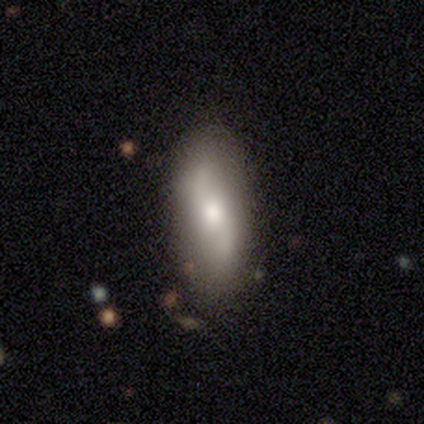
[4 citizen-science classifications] smooth-or-featured: smooth: 50% (tied) | featured or disk: 50% (tied) | star or artifact: 0%
  how-rounded: in between: 100% | round: 0% | cigar-shaped: 0%
  merging: none: 100% | minor disturbance: 0% | major disturbance: 0% | merger: 0%